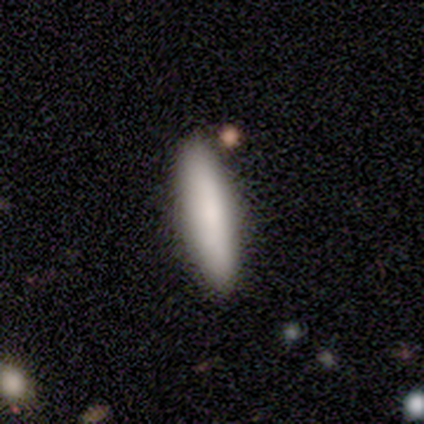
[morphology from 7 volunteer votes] Q: Smooth or featured?
A: smooth (100%)
Q: How rounded?
A: cigar-shaped (100%)
Q: Merging?
A: none (100%)